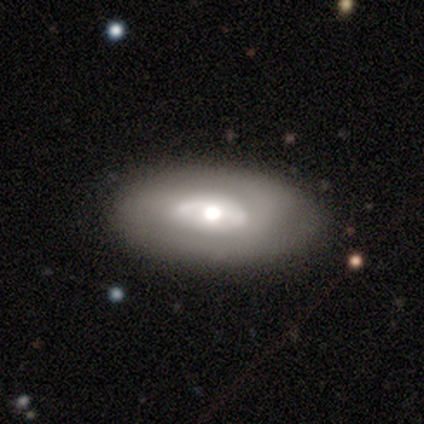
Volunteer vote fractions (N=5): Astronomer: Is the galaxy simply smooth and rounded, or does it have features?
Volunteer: featured or disk — 60% (runner-up: smooth, 40%).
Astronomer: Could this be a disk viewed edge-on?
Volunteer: no — 100%.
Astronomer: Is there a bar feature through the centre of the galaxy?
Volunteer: no — 67%.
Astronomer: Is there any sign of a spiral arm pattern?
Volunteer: no — 100%.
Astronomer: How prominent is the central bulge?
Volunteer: moderate — 100%.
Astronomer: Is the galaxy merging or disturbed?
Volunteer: none — 60% (runner-up: major disturbance, 40%).